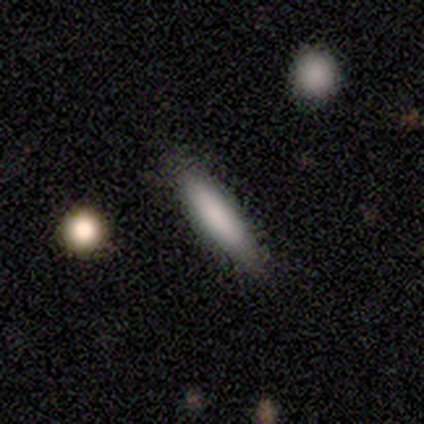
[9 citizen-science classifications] A smooth galaxy with no disk features (89%) that is cigar-shaped (88%). Merging: none (78%).